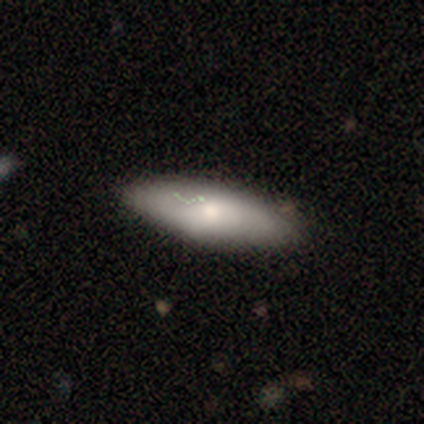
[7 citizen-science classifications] smooth_or_featured: smooth (p=1.00)
how_rounded: cigar-shaped (p=0.57) [alt: in between p=0.43]
merging: none (p=0.71) [alt: minor disturbance p=0.29]